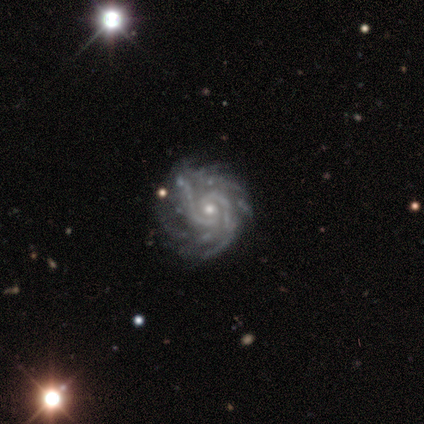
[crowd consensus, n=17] This is clearly a featured or disk galaxy (94%). It is clearly not viewed edge-on (100%). Bar: likely no (62%). Spiral arm pattern: clearly yes (100%). Spiral arm count: possibly 2 (56%). Spiral winding: likely tight (69%). Central bulge: possibly small (56%). Merging: likely none (69%).